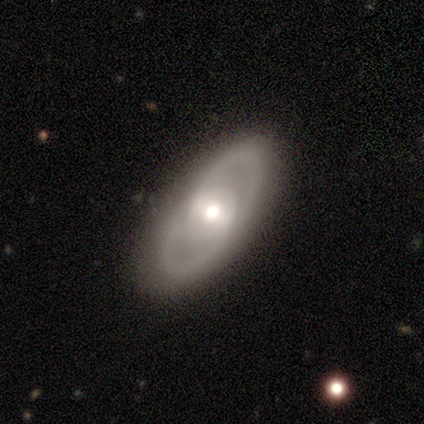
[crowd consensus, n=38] This is likely a featured or disk galaxy (61%). It is clearly not viewed edge-on (83%). Bar: likely weak (63%). Spiral arm pattern: clearly yes (89%). Spiral arm count: clearly 2 (94%). Spiral winding: possibly medium (59%). Central bulge: likely moderate (68%). Merging: likely none (79%).